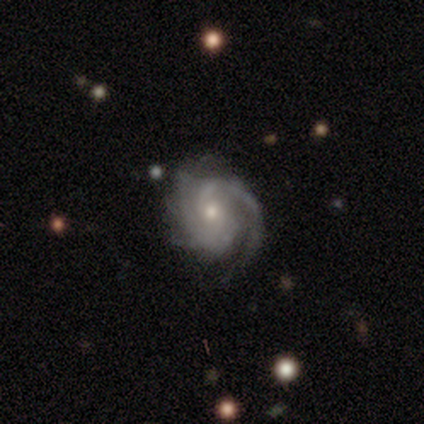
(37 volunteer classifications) Smooth or featured: featured or disk — 95% (smooth — 3%)
Edge-on disk: no — 100%
Bar: no — 66% (weak — 29%)
Spiral arms: yes — 100%
Spiral winding: tight — 63% (medium — 31%)
Spiral arm count: 2 — 46% (can't tell — 26%)
Bulge size: moderate — 51% (small — 49%)
Merging: none — 83% (minor disturbance — 14%)